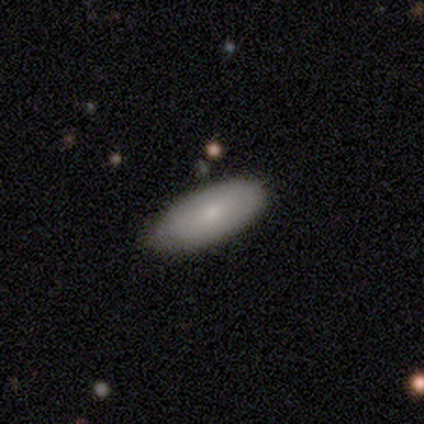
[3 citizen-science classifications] Overall: smooth (100%). How rounded: in between (100%). Merging: none (100%).